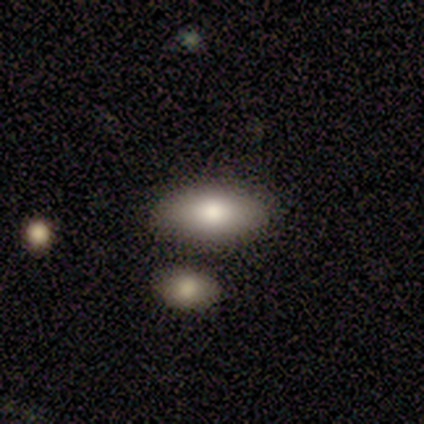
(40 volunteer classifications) Q: Smooth or featured?
A: smooth (78%); runner-up: featured or disk (20%)
Q: How rounded?
A: in between (94%); runner-up: cigar-shaped (6%)
Q: Merging?
A: none (62%); runner-up: merger (13%)